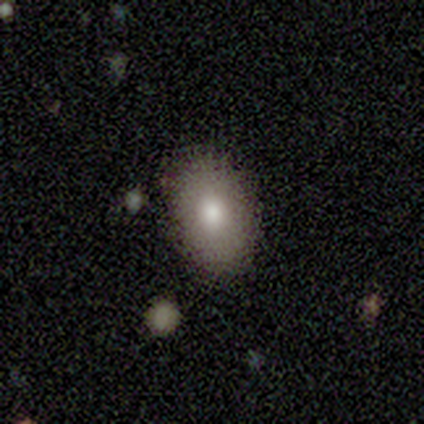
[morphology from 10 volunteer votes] smooth 60%, featured or disk 30%, star or artifact 10%. Down the decision tree: how rounded — in between (100%); merging — none (89%).